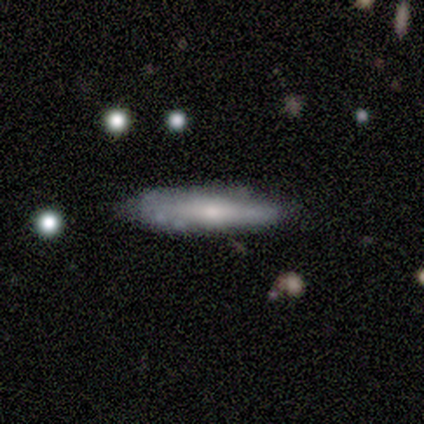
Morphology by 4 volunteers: smooth-or-featured: smooth: 75% | featured or disk: 25% | star or artifact: 0%
  how-rounded: cigar-shaped: 100% | round: 0% | in between: 0%
  merging: none: 75% | minor disturbance: 25% | major disturbance: 0% | merger: 0%